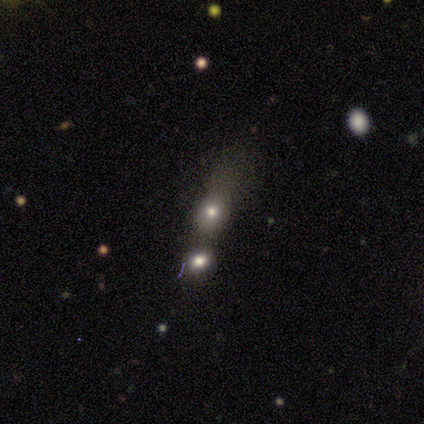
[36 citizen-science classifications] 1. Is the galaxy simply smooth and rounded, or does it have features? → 69% smooth, 28% star or artifact, 3% featured or disk.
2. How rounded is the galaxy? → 60% in between, 40% round, 0% cigar-shaped.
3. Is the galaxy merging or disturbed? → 54% merger, 19% minor disturbance, 15% major disturbance, 12% none.